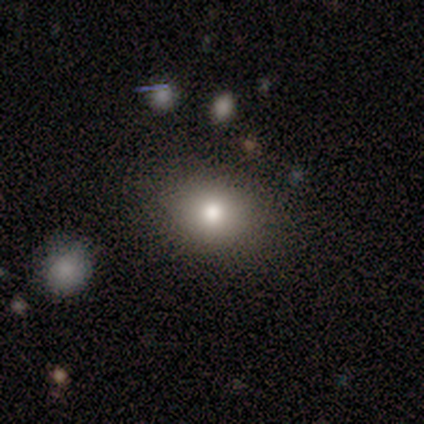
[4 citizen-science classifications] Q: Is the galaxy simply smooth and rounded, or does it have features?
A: smooth — 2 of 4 (50%, tied with featured or disk).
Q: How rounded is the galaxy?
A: round — 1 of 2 (50%, tied with in between).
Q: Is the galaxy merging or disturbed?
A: none — 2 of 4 (50%, tied with minor disturbance).